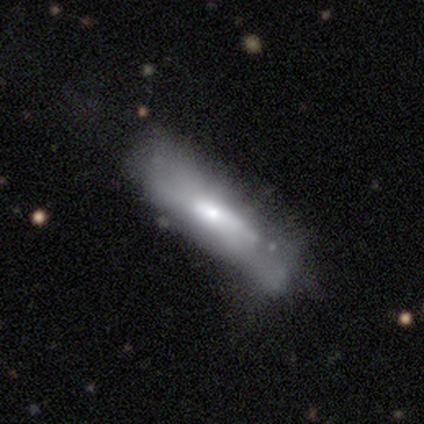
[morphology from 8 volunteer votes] featured or disk 50%, smooth 38%, star or artifact 12%. Down the decision tree: edge-on disk — no (75%); bar — no (100%); spiral arms — no (100%); bulge size — large (33%, tied with moderate and none); merging — minor disturbance (57%).